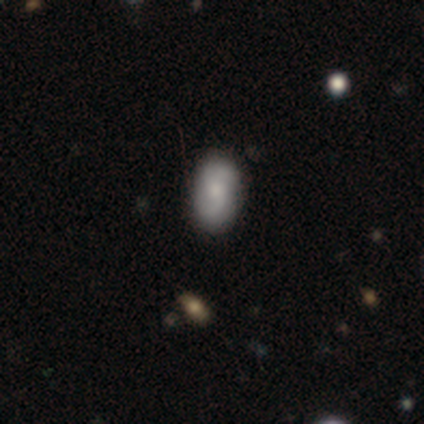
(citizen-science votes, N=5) smooth_or_featured: smooth (p=0.40) [tied with: featured or disk p=0.40]
how_rounded: in between (p=1.00)
merging: none (p=0.75) [alt: minor disturbance p=0.25]